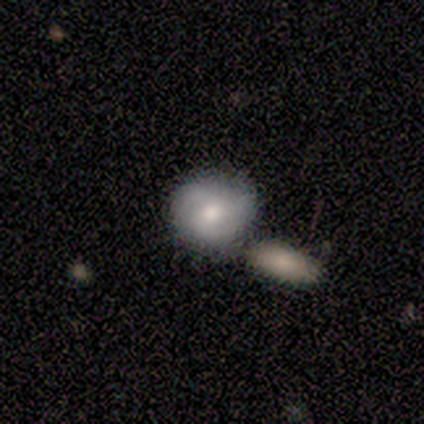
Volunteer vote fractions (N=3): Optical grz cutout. It shows a featured or disk galaxy (67%) with no bar (100%), 2 (50%, tied with can't tell) medium (50%, tied with loose) spiral arms (100%) and a moderate central bulge (50%, tied with small). Merging: minor disturbance (67%).